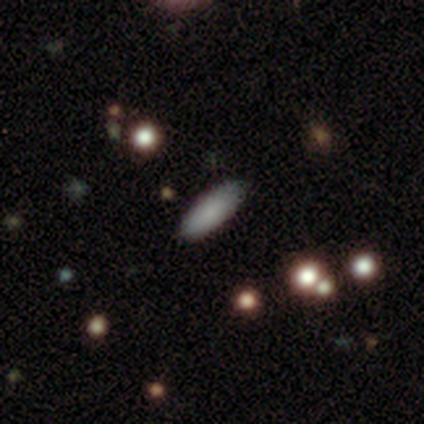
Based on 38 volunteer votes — Smooth or featured?
  - smooth: 79% *
  - featured or disk: 11%
  - star or artifact: 11%
How rounded?
  - in between: 67% *
  - cigar-shaped: 33%
  - round: 0%
Merging?
  - none: 76% *
  - minor disturbance: 21%
  - merger: 3%
  - major disturbance: 0%